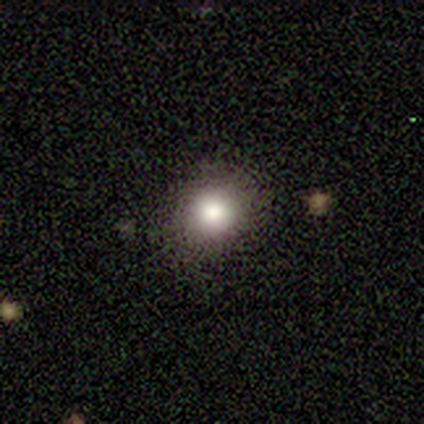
Q: Smooth or featured?
A: smooth (100%)
Q: How rounded?
A: round (100%)
Q: Merging?
A: none (100%)